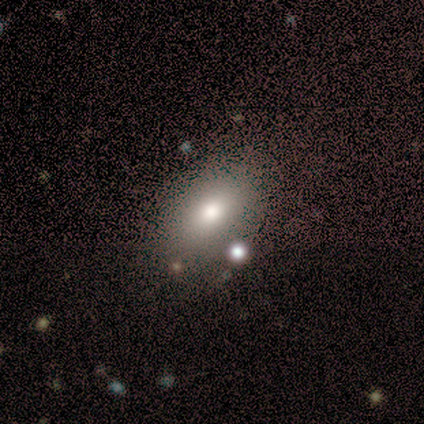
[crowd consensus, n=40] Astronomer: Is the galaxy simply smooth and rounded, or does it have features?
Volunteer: smooth — 75%.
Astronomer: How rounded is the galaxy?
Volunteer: in between — 100%.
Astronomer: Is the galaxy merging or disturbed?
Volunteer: none — 78%.